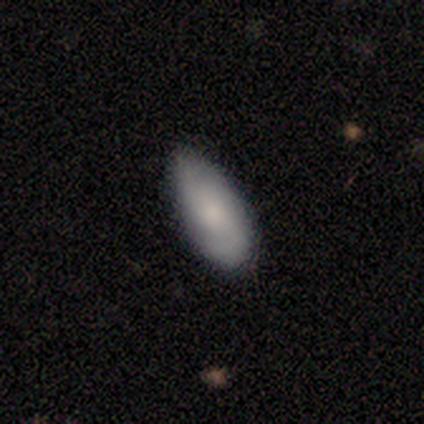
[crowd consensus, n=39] Smooth or featured? 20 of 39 (51%) said smooth. How rounded? 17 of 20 (85%) said in between. Merging? 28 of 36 (78%) said none.